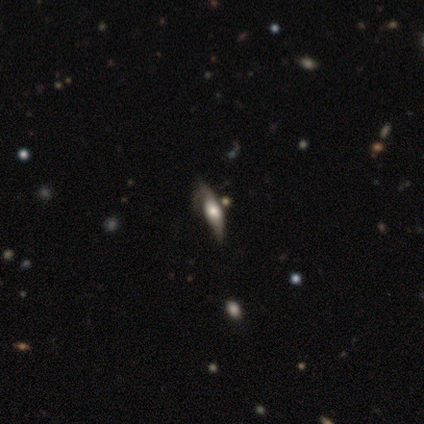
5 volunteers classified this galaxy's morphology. This appears to be a smooth galaxy with no disk features (40%, tied with star or artifact) that is in between round and cigar-shaped (50%, tied with cigar-shaped). Merging: major disturbance (67%).